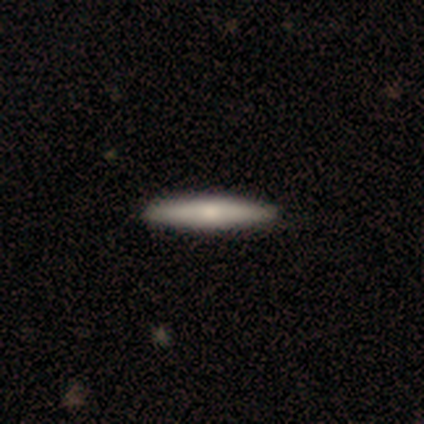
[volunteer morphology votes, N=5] Q: Smooth or featured?
A: smooth (60%); runner-up: featured or disk (40%)
Q: How rounded?
A: cigar-shaped (100%)
Q: Merging?
A: none (100%)